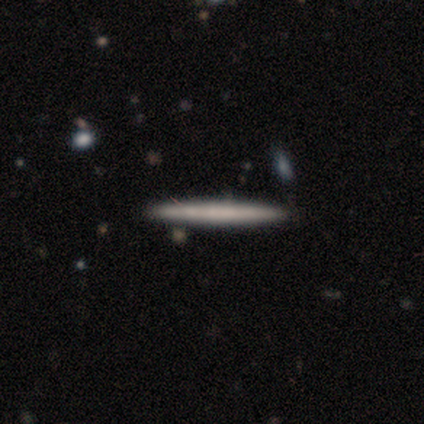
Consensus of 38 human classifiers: Q: Smooth or featured?
A: featured or disk (53%); runner-up: smooth (42%)
Q: Edge-on disk?
A: yes (100%)
Q: Edge-on bulge?
A: none (95%); runner-up: rounded (5%)
Q: Merging?
A: none (89%); runner-up: minor disturbance (8%)